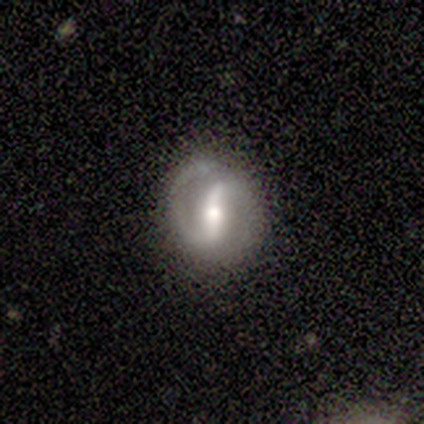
Overall: featured or disk (100%). Edge-on disk: no (80%). Bar: strong (100%). Spiral arms: yes (75%). Spiral arm count: 2 (67%; 1 33%). Spiral winding: loose (67%; tight 33%). Bulge size: moderate (75%). Merging: none (80%).